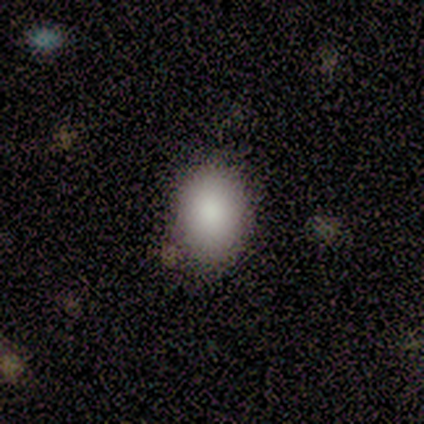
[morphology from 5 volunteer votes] Overall: smooth (80%). How rounded: round (100%). Merging: none (75%).